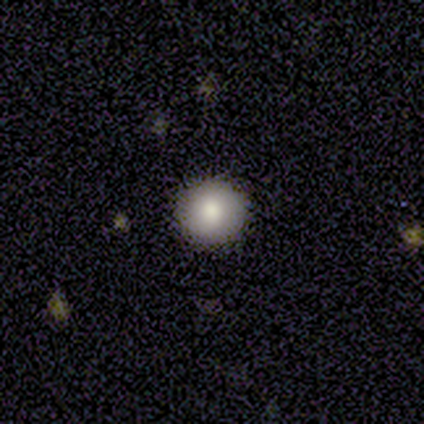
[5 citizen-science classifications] Smooth or featured? 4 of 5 (80%) said smooth. How rounded? 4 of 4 (100%) said round. Merging? 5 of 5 (100%) said none.